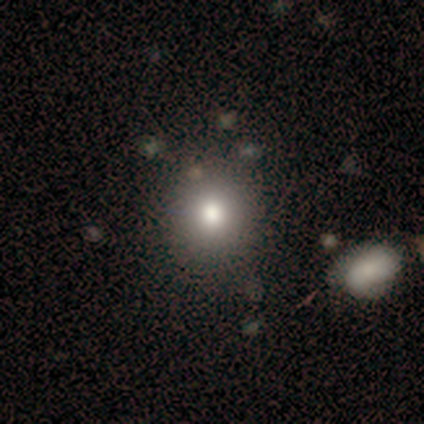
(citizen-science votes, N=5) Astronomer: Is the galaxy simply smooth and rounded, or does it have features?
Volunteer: smooth — 100%.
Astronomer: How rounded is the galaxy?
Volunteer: round — 60% (runner-up: in between, 40%).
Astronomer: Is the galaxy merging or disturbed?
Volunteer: none — 100%.